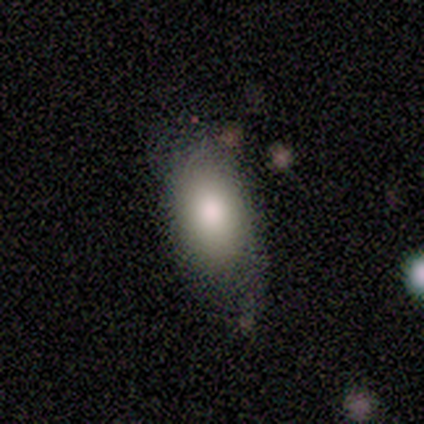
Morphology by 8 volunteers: Q: Smooth or featured?
A: smooth (62%); runner-up: featured or disk (25%)
Q: How rounded?
A: in between (100%)
Q: Merging?
A: none (57%); runner-up: minor disturbance (29%)